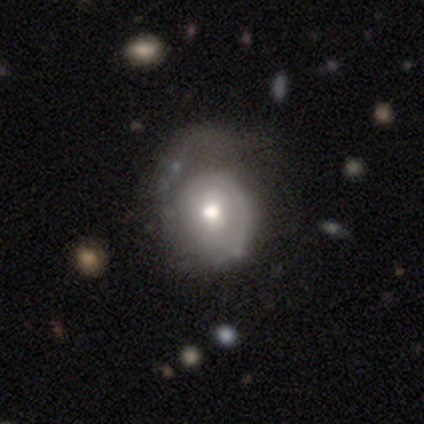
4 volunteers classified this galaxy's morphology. A featured or disk galaxy (100%) with no bar (67%), no spiral arms (67%) and a moderate central bulge (100%). Merging: none (50%).